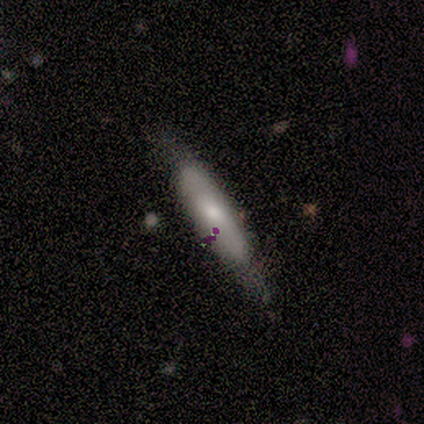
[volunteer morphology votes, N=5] This appears to be a smooth galaxy with no disk features (40%, tied with featured or disk) that is in between round and cigar-shaped (50%, tied with cigar-shaped). Merging: none (50%).